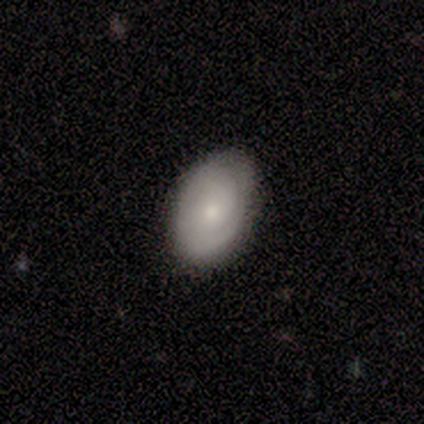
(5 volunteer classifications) A smooth galaxy with no disk features (80%) that is in between round and cigar-shaped (100%).

Vote fractions:
- Smooth or featured? smooth: 80% / featured or disk: 20% / star or artifact: 0%
- How rounded? in between: 100% / round: 0% / cigar-shaped: 0%
- Merging? none: 60% / minor disturbance: 40% / major disturbance: 0% / merger: 0%